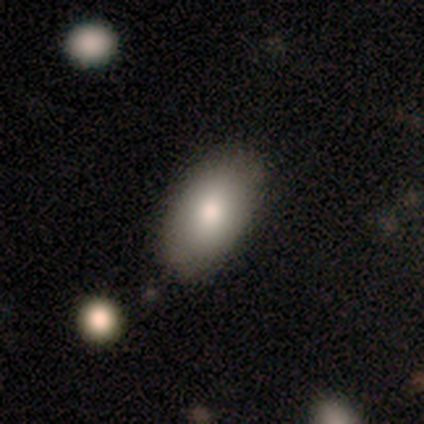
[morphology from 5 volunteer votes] A smooth galaxy with no disk features (60%) that is in between round and cigar-shaped (100%). Merging: none (50%, tied with minor disturbance).